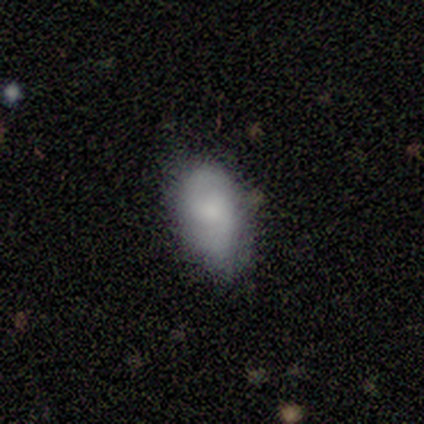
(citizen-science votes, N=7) Smooth or featured?
  - smooth: 57% *
  - featured or disk: 43%
  - star or artifact: 0%
How rounded?
  - in between: 100% *
  - round: 0%
  - cigar-shaped: 0%
Merging?
  - none: 43% * (tied)
  - minor disturbance: 43% * (tied)
  - major disturbance: 14%
  - merger: 0%